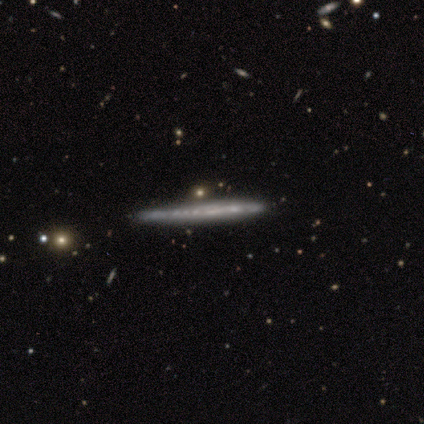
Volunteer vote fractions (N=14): Smooth or featured: featured or disk — 79% (smooth — 21%)
Edge-on disk: yes — 100%
Edge-on bulge: none — 100%
Merging: none — 79% (merger — 14%)